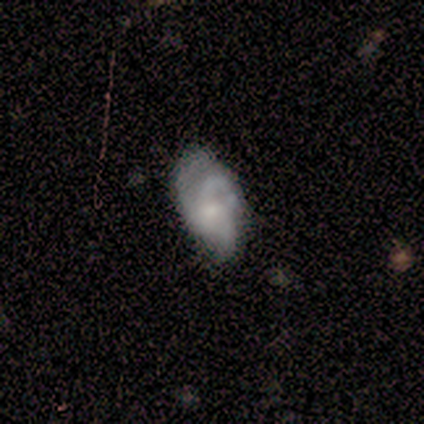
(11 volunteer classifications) Smooth or featured: featured or disk — 73% (smooth — 27%)
Edge-on disk: no — 100%
Bar: no — 75% (weak — 25%)
Spiral arms: yes — 75% (no — 25%)
Spiral winding: tight — 50% (medium — 33%)
Spiral arm count: 3 — 100%
Bulge size: small — 75% (moderate — 25%)
Merging: minor disturbance — 55% (none — 27%)